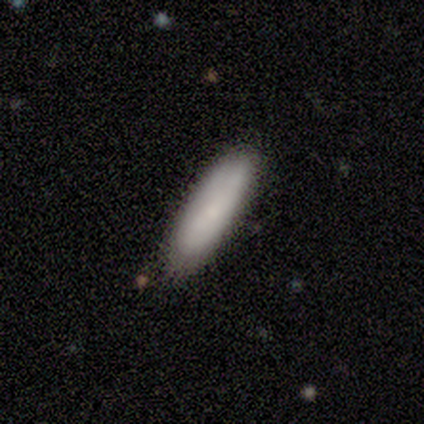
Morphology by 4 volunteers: Overall: smooth (75%). How rounded: cigar-shaped (100%). Merging: none (100%).